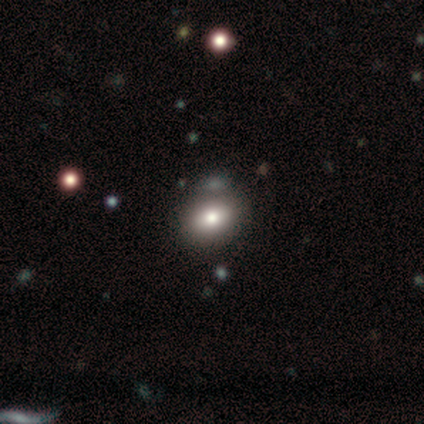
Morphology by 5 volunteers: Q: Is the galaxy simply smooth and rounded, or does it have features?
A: smooth — 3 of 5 (60%).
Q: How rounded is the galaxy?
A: in between — 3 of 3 (100%).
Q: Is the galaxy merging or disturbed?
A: none — 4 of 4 (100%).